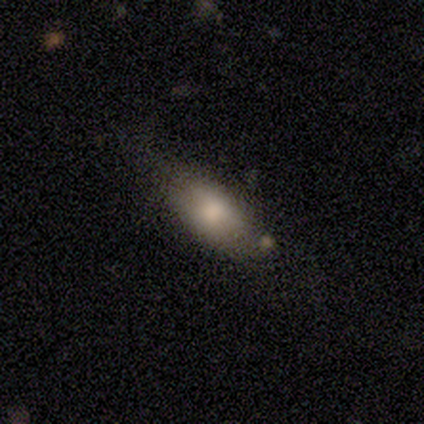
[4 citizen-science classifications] Smooth or featured? 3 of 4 (75%) said smooth. How rounded? 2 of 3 (67%) said in between. Merging? 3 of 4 (75%) said none.